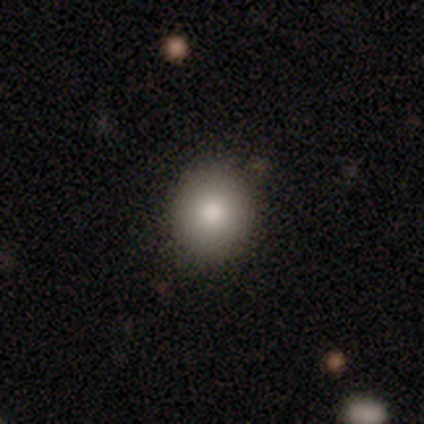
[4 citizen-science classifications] smooth-or-featured: smooth: 100% | featured or disk: 0% | star or artifact: 0%
  how-rounded: round: 100% | in between: 0% | cigar-shaped: 0%
  merging: none: 100% | minor disturbance: 0% | major disturbance: 0% | merger: 0%